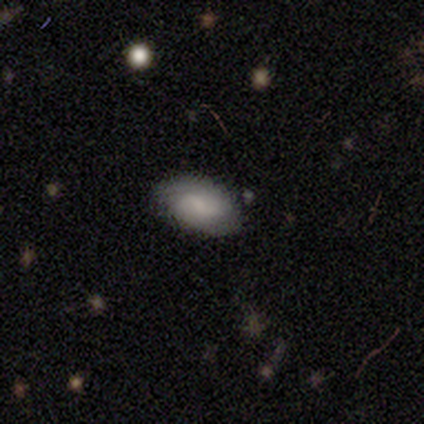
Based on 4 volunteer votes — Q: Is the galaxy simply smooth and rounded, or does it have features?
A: smooth — 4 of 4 (100%).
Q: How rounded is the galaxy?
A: in between — 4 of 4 (100%).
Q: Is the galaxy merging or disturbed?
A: none — 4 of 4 (100%).